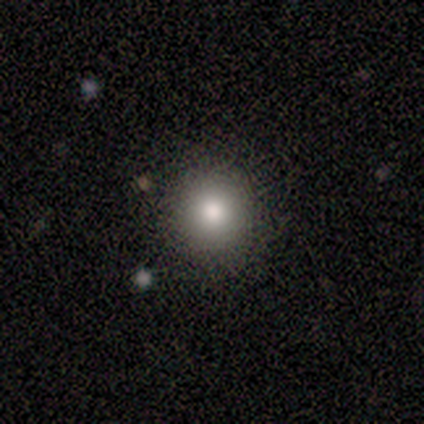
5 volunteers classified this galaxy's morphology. This appears to be a smooth galaxy with no disk features (60%) that is round (100%). Merging: none (100%).